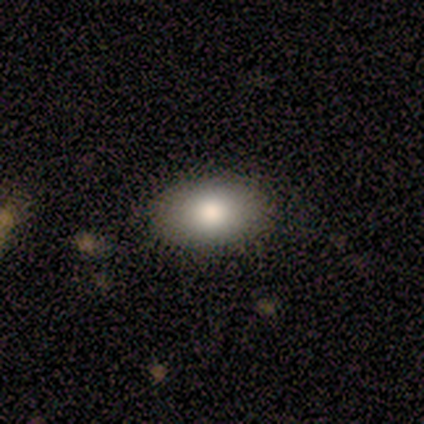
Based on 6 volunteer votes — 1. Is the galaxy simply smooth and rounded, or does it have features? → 67% featured or disk, 33% smooth, 0% star or artifact.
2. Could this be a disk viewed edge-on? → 100% no, 0% yes.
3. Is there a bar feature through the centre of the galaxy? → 75% no, 25% weak, 0% strong.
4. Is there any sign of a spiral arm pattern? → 100% no, 0% yes.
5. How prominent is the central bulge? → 50% large, 25% moderate, 25% small, 0% dominant, 0% none.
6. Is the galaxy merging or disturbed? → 67% none, 17% minor disturbance, 17% major disturbance, 0% merger.